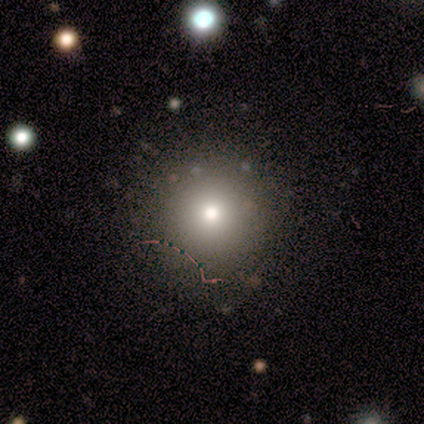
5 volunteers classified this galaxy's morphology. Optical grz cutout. It shows a star or artifact, not a galaxy (60%).